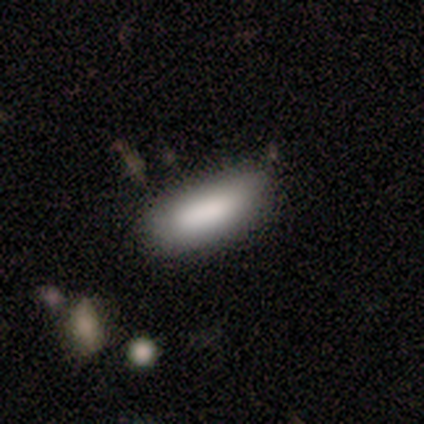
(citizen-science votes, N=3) smooth-or-featured: smooth: 100% | featured or disk: 0% | star or artifact: 0%
  how-rounded: in between: 100% | round: 0% | cigar-shaped: 0%
  merging: none: 33% (tied) | minor disturbance: 33% (tied) | major disturbance: 33% (tied) | merger: 0%